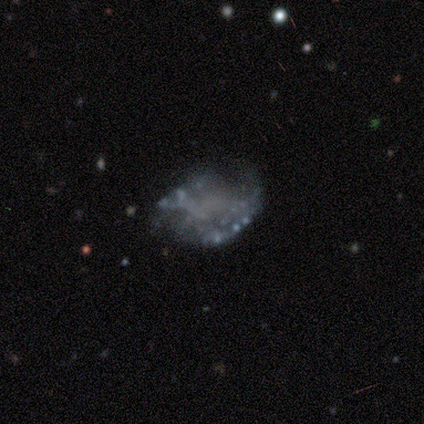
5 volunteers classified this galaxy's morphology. A featured or disk galaxy (60%) with no bar (100%), no spiral arms (67%) and no central bulge (100%).

Vote fractions:
- Smooth or featured? featured or disk: 60% / smooth: 20% / star or artifact: 20%
- Edge-on disk? no: 100% / yes: 0%
- Bar? no: 100% / strong: 0% / weak: 0%
- Spiral arms? no: 67% / yes: 33%
- Bulge size? none: 100% / dominant: 0% / large: 0% / moderate: 0% / small: 0%
- Merging? none: 50% (tied) / minor disturbance: 50% (tied) / major disturbance: 0% / merger: 0%